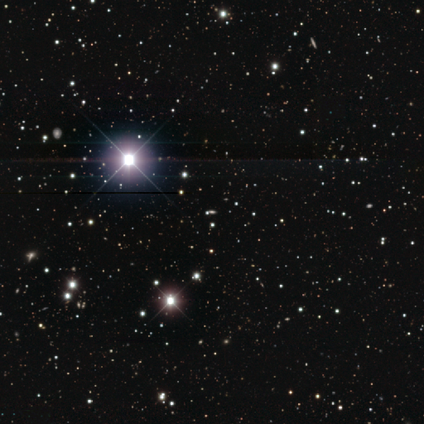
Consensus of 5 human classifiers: Smooth or featured? 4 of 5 (80%) said star or artifact.